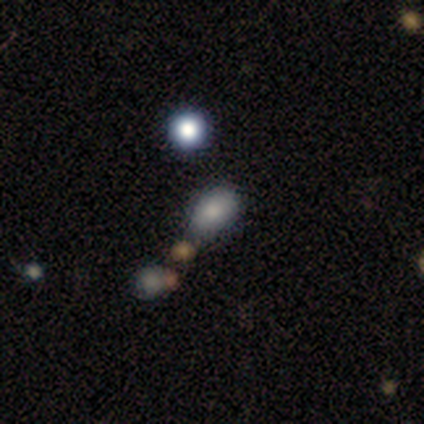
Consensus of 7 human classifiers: Morphology: type=smooth (71%); roundness=in between (80%); merging=none (60%).